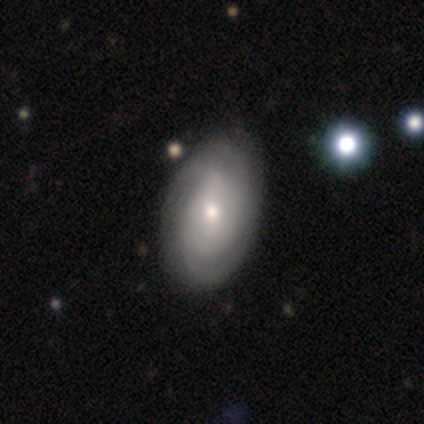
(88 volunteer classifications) Smooth or featured?
  - featured or disk: 70% *
  - smooth: 24%
  - star or artifact: 6%
Edge-on disk?
  - no: 97% *
  - yes: 3%
Bar?
  - no: 58% *
  - weak: 37%
  - strong: 5%
Spiral arms?
  - yes: 80% *
  - no: 20%
Spiral winding?
  - tight: 65% *
  - medium: 29%
  - loose: 6%
Spiral arm count?
  - can't tell: 35% *
  - 3: 23%
  - 2: 21%
  - 4: 15%
  - more than 4: 4%
  - 1: 2%
Bulge size?
  - small: 50% *
  - moderate: 43%
  - dominant: 3%
  - large: 2%
  - none: 2%
Merging?
  - none: 83% *
  - minor disturbance: 13%
  - major disturbance: 2%
  - merger: 1%